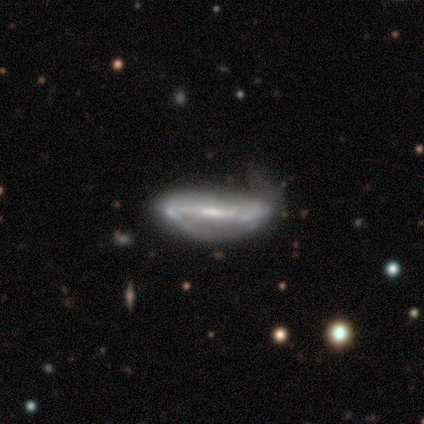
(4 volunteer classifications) Smooth or featured?
  - featured or disk: 75% *
  - star or artifact: 25%
  - smooth: 0%
Edge-on disk?
  - no: 100% *
  - yes: 0%
Bar?
  - strong: 67% *
  - weak: 33%
  - no: 0%
Spiral arms?
  - yes: 100% *
  - no: 0%
Spiral winding?
  - medium: 67% *
  - loose: 33%
  - tight: 0%
Spiral arm count?
  - 2: 67% *
  - can't tell: 33%
  - 1: 0%
  - 3: 0%
  - 4: 0%
  - more than 4: 0%
Bulge size?
  - small: 100% *
  - dominant: 0%
  - large: 0%
  - moderate: 0%
  - none: 0%
Merging?
  - minor disturbance: 100% *
  - none: 0%
  - major disturbance: 0%
  - merger: 0%